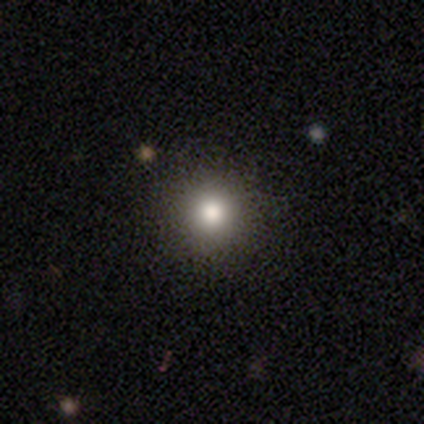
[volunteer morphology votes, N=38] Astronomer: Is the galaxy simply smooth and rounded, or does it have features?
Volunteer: smooth — 82%.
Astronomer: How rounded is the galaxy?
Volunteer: round — 97%.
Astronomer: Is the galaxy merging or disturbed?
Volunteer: none — 69%.